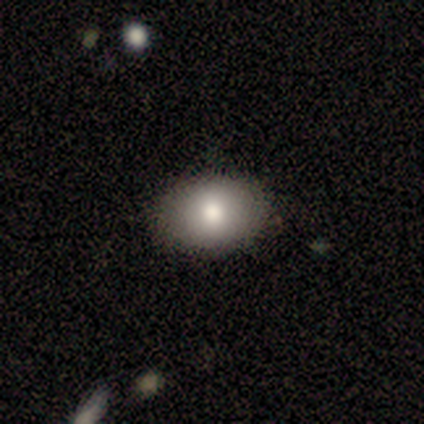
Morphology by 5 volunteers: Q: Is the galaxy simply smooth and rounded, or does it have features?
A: smooth — 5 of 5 (100%).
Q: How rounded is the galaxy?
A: in between — 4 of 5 (80%).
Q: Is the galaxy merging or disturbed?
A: none — 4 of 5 (80%).